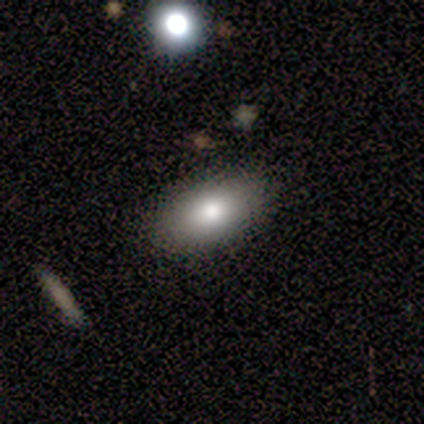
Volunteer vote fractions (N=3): A smooth galaxy with no disk features (100%) that is in between round and cigar-shaped (100%).

Vote fractions:
- Smooth or featured? smooth: 100% / featured or disk: 0% / star or artifact: 0%
- How rounded? in between: 100% / round: 0% / cigar-shaped: 0%
- Merging? none: 100% / minor disturbance: 0% / major disturbance: 0% / merger: 0%